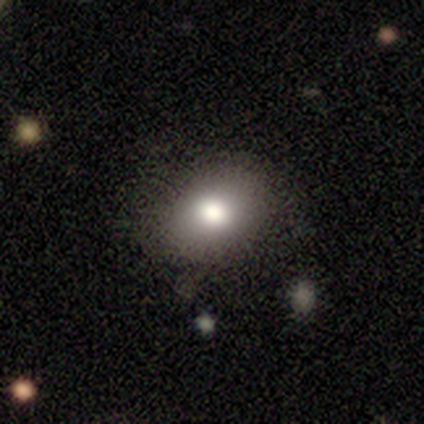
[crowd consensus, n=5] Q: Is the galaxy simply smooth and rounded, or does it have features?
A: smooth — 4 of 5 (80%).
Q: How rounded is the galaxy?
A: round — 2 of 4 (50%, tied with in between).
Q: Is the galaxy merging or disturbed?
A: none — 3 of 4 (75%).